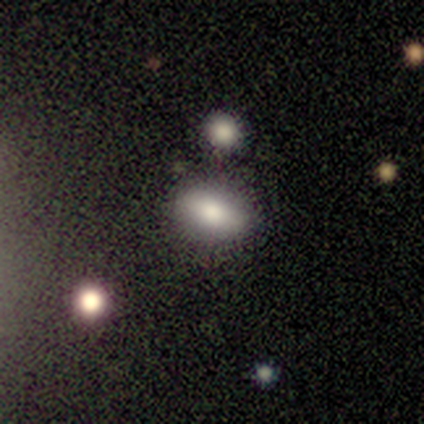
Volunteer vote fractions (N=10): smooth_or_featured: smooth (p=0.90) [alt: featured or disk p=0.10]
how_rounded: in between (p=1.00)
merging: none (p=0.60) [alt: minor disturbance p=0.30]